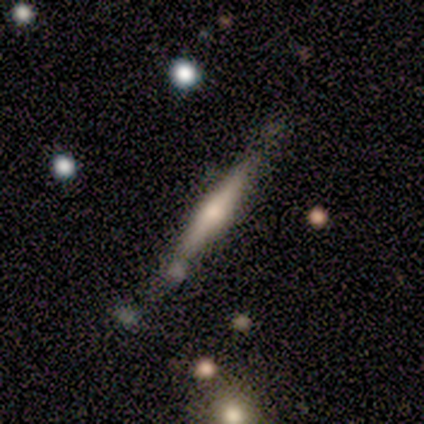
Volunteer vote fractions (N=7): A featured or disk galaxy (57%) viewed edge-on (100%) with a rounded central bulge (100%). Merging: none (57%).